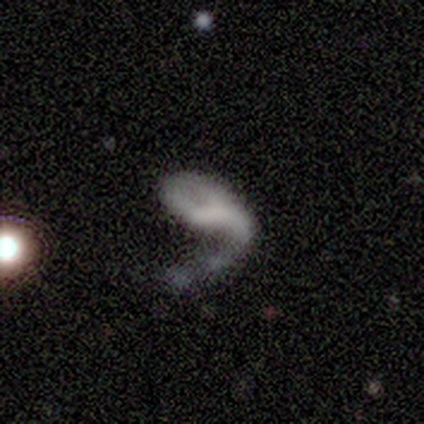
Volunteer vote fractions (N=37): Smooth or featured: featured or disk — 59% (smooth — 27%)
Edge-on disk: no — 100%
Bar: no — 68% (weak — 23%)
Spiral arms: yes — 64% (no — 36%)
Spiral winding: loose — 79% (medium — 21%)
Spiral arm count: 2 — 50% (1 — 36%)
Bulge size: none — 86% (moderate — 9%)
Merging: major disturbance — 75% (none — 9%)